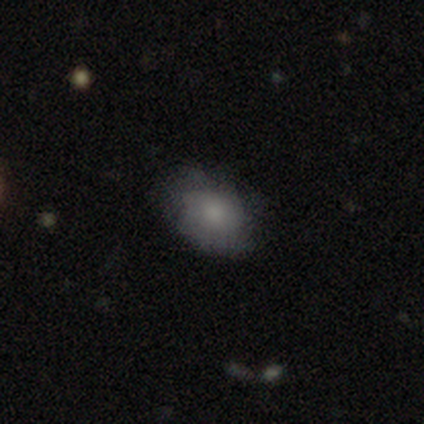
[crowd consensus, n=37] This is possibly a smooth galaxy (57%). How rounded: clearly in between (81%). Merging: likely none (67%).